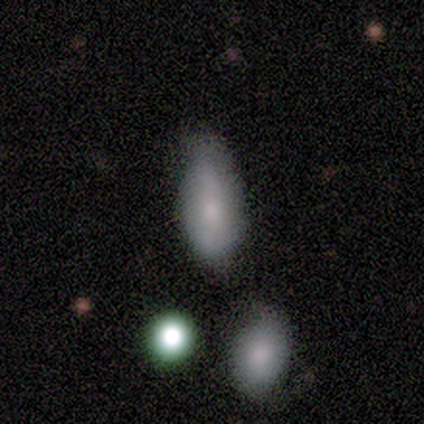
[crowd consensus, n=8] Overall: smooth (62%; featured or disk 38%). How rounded: in between (80%). Merging: none (62%; minor disturbance 25%).